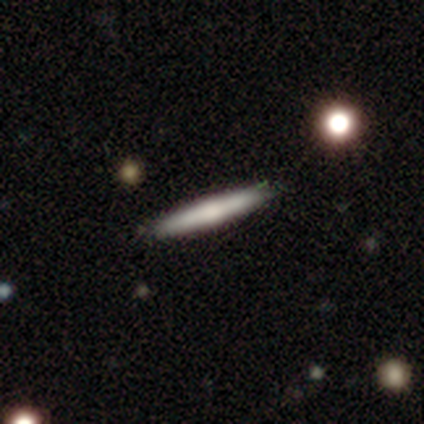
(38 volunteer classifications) smooth_or_featured: smooth (p=0.58) [alt: featured or disk p=0.39]
how_rounded: cigar-shaped (p=0.95) [alt: in between p=0.05]
merging: none (p=0.92) [alt: minor disturbance p=0.08]